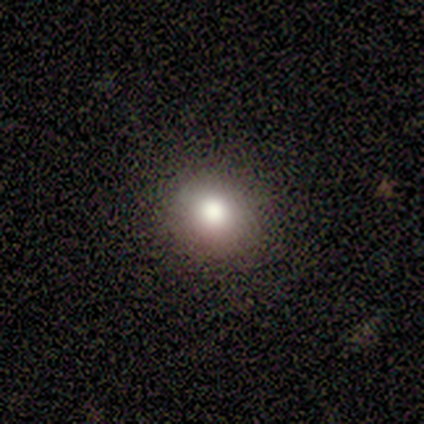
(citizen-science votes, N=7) This is clearly a smooth galaxy (86%). How rounded: clearly round (83%). Merging: clearly none (100%).